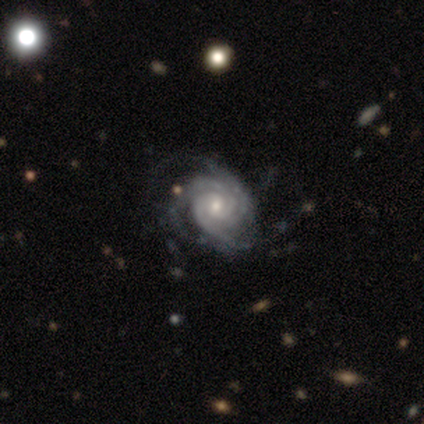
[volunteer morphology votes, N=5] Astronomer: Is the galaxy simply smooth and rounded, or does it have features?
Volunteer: featured or disk — 100%.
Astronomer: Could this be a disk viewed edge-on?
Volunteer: no — 100%.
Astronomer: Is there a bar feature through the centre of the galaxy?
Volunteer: no — 80%.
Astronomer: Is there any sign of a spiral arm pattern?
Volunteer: yes — 100%.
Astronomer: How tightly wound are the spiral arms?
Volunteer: tight — 80%.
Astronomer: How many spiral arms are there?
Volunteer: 3 — 80%.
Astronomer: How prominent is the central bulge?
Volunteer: moderate — 80%.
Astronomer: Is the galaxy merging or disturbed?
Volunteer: none — 40%, tied with major disturbance at 40%.